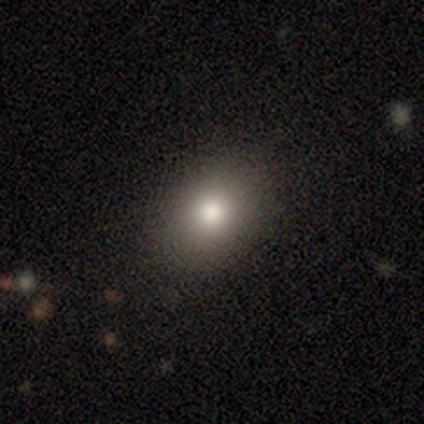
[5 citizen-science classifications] Smooth or featured? 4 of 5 (80%) said smooth. How rounded? 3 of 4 (75%) said in between. Merging? 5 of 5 (100%) said none.